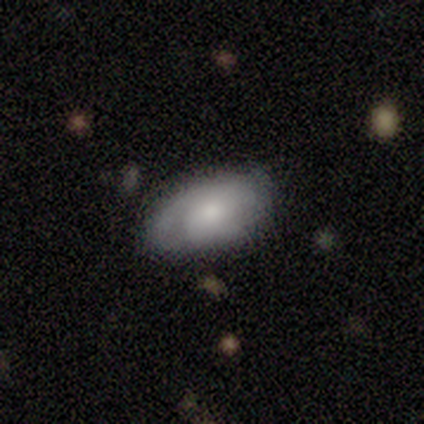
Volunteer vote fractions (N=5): Q: Smooth or featured?
A: featured or disk (80%); runner-up: smooth (20%)
Q: Edge-on disk?
A: no (100%)
Q: Bar?
A: no (100%)
Q: Spiral arms?
A: yes (75%); runner-up: no (25%)
Q: Spiral winding?
A: tight (67%); runner-up: medium (33%)
Q: Spiral arm count?
A: 2 (100%)
Q: Bulge size?
A: small (75%); runner-up: moderate (25%)
Q: Merging?
A: none (60%); runner-up: minor disturbance (40%)